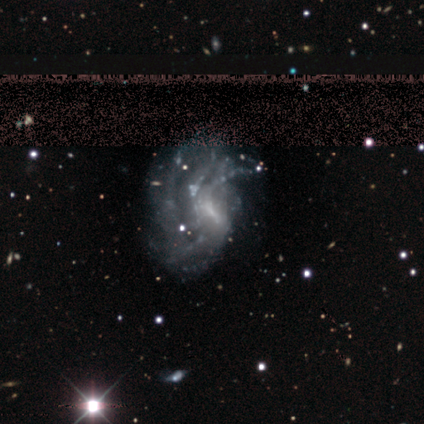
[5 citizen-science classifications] smooth-or-featured: featured or disk: 80% | smooth: 20% | star or artifact: 0%
  disk-edge-on: no: 100% | yes: 0%
    bar: weak: 100% | strong: 0% | no: 0%
    has-spiral-arms: yes: 100% | no: 0%
      spiral-winding: medium: 75% | loose: 25% | tight: 0%
      spiral-arm-count: 2: 25% (tied) | 3: 25% (tied) | 4: 25% (tied) | can't tell: 25% (tied) | 1: 0% | more than 4: 0%
    bulge-size: small: 75% | none: 25% | dominant: 0% | large: 0% | moderate: 0%
  merging: none: 40% | minor disturbance: 20% | major disturbance: 20% | merger: 20%